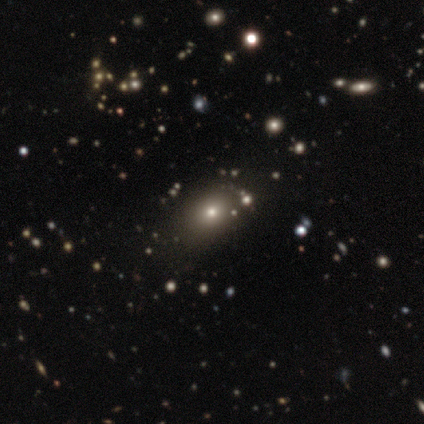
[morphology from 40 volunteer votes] Smooth or featured? 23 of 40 (57%) said smooth. How rounded? 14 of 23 (61%) said round. Merging? 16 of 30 (53%) said none.